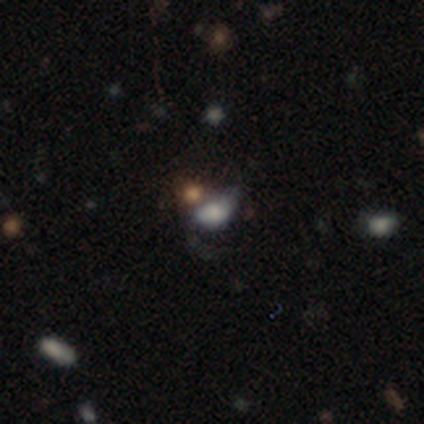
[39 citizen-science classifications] smooth-or-featured: smooth: 38% | star or artifact: 36% | featured or disk: 26%
  how-rounded: in between: 67% | round: 33% | cigar-shaped: 0%
  merging: minor disturbance: 40% | merger: 32% | none: 20% | major disturbance: 8%